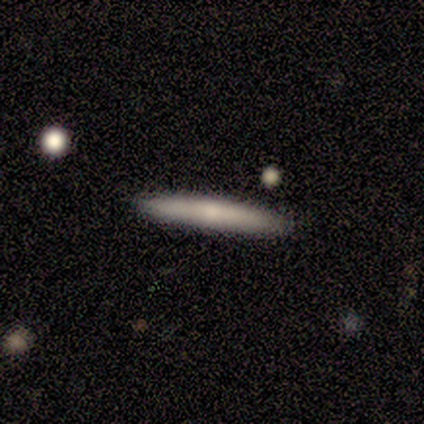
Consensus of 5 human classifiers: Morphology: type=smooth (60%); roundness=cigar-shaped (100%); merging=none (100%).